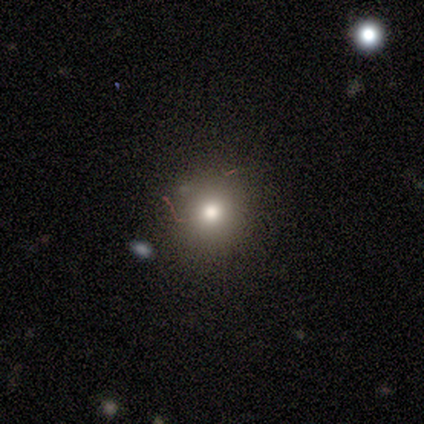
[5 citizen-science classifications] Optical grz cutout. It shows a smooth galaxy with no disk features (80%) that is round (100%). Merging: none (60%).